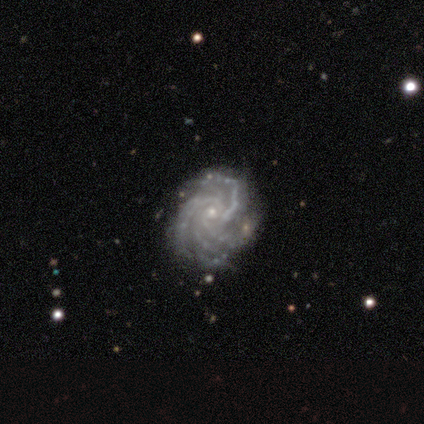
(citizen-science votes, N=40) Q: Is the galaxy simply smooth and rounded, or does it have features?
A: featured or disk — 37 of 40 (92%).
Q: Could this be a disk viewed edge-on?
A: no — 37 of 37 (100%).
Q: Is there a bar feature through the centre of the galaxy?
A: no — 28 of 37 (76%).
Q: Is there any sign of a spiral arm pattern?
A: yes — 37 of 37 (100%).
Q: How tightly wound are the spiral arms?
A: tight — 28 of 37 (76%).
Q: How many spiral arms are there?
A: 4 — 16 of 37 (43%).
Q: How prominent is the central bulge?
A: small — 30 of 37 (81%).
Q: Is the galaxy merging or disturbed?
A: none — 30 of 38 (79%).